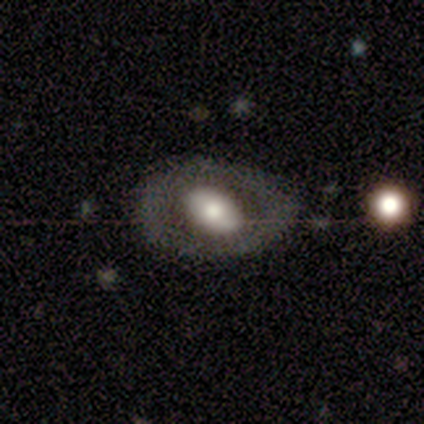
smooth_or_featured: featured or disk (p=0.47) [alt: smooth p=0.45]
disk_edge_on: no (p=0.89) [alt: yes p=0.11]
bar: no (p=0.69) [alt: weak p=0.19]
has_spiral_arms: no (p=0.94) [alt: yes p=0.06]
bulge_size: large (p=0.38) [tied with: moderate p=0.38]
merging: none (p=0.66) [alt: minor disturbance p=0.29]